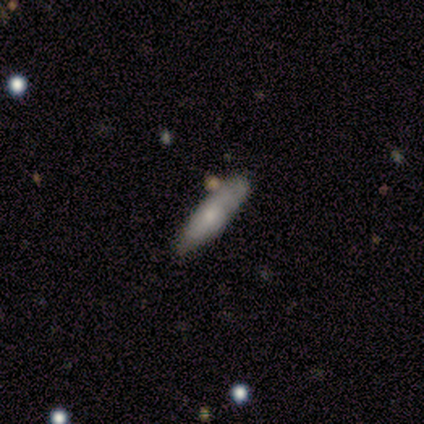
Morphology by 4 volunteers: smooth 50% (tied), featured or disk 50% (tied), star or artifact 0%. Down the decision tree: how rounded — in between (50%, tied with cigar-shaped); merging — none (50%).